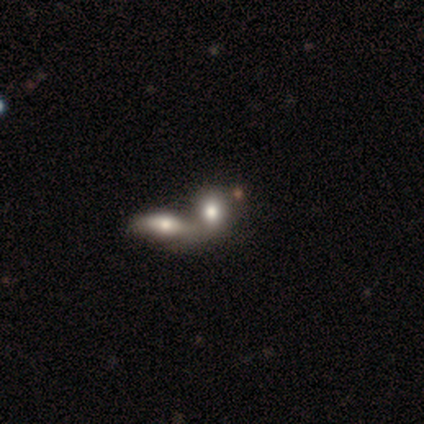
Smooth or featured? star or artifact (75%)